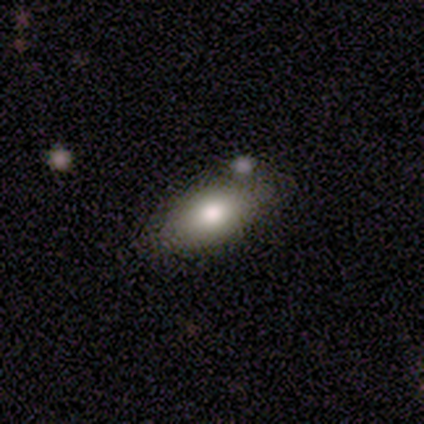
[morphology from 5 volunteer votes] Smooth or featured? smooth (80%)
How rounded? in between (100%)
Merging? none (100%)